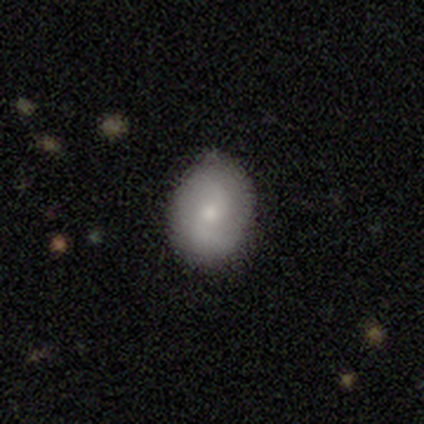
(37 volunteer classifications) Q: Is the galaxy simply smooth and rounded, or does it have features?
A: smooth — 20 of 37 (54%).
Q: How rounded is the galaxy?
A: in between — 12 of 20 (60%).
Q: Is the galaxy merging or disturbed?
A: none — 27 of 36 (75%).